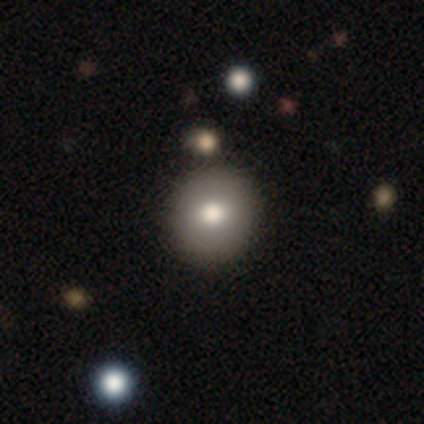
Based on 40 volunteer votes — Smooth or featured? smooth (75%)
How rounded? round (93%)
Merging? none (83%)